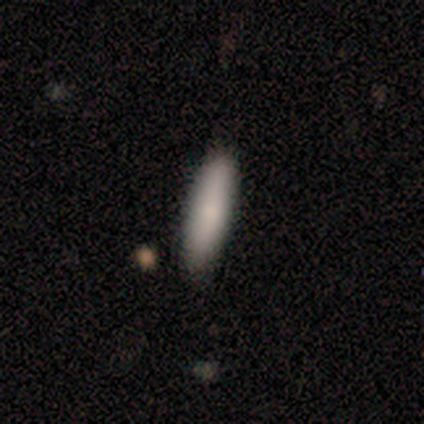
This is clearly a smooth galaxy (80%). How rounded: possibly in between (50%, tied with cigar-shaped). Merging: clearly none (100%).